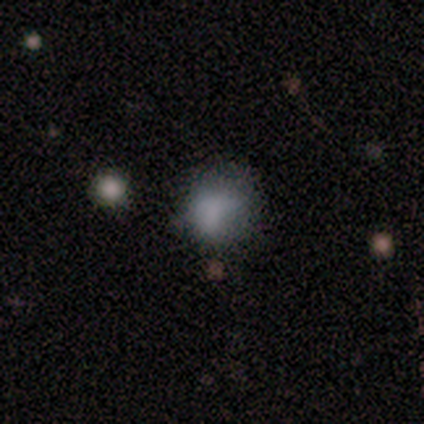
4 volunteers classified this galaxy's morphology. Smooth or featured: smooth — 100%
How rounded: round — 50% (tied with in between — 50%)
Merging: none — 75% (minor disturbance — 25%)